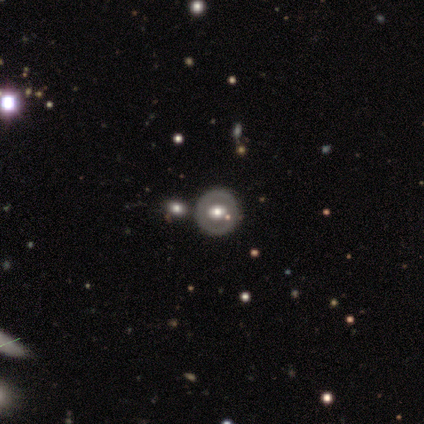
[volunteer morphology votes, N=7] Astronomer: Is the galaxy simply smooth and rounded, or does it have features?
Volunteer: featured or disk — 57% (runner-up: smooth, 43%).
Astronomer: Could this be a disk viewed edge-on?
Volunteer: no — 100%.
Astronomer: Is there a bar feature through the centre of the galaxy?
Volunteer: no — 75%.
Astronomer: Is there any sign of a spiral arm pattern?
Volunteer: no — 100%.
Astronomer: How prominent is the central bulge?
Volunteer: large — 50%, tied with moderate at 50%.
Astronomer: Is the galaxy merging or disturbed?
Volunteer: none — 86%.